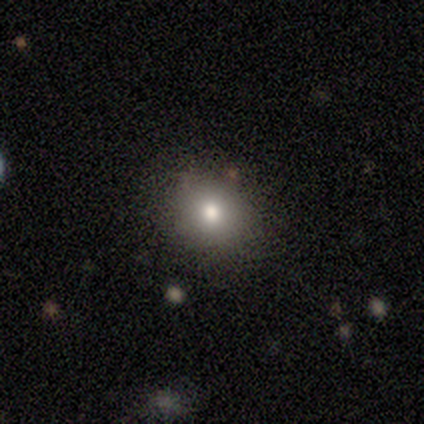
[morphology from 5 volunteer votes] Smooth or featured: star or artifact — 60% (smooth — 40%)